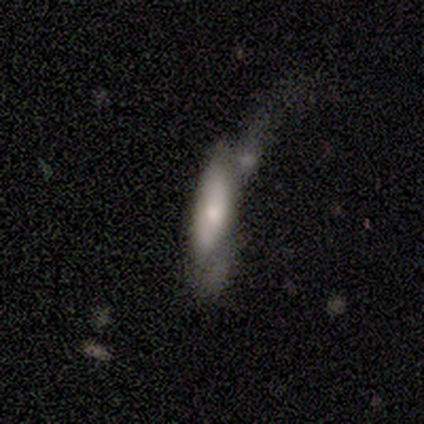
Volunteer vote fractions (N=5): Smooth or featured? smooth (60%)
How rounded? in between (67%)
Merging? merger (60%)